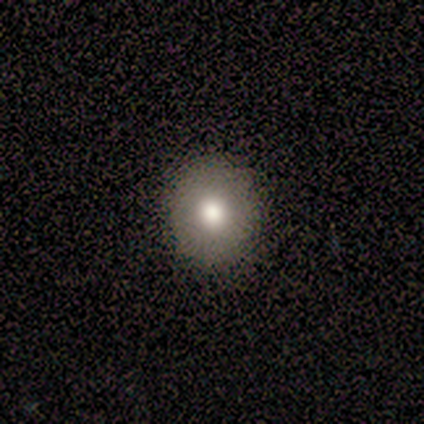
Morphology: type=smooth (80%); roundness=round (100%); merging=none (100%).